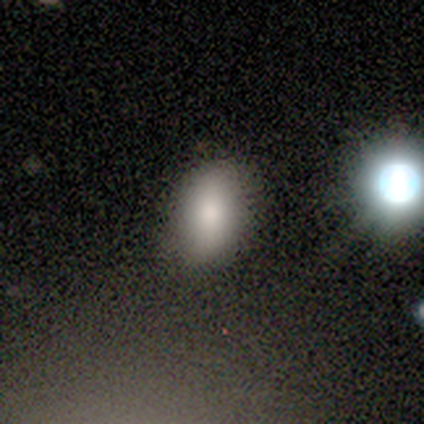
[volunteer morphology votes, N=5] Volunteers were most divided on "how rounded": in between: 80%, round: 20%, cigar-shaped: 0%. More confident: smooth or featured — smooth (100%); merging — none (80%).